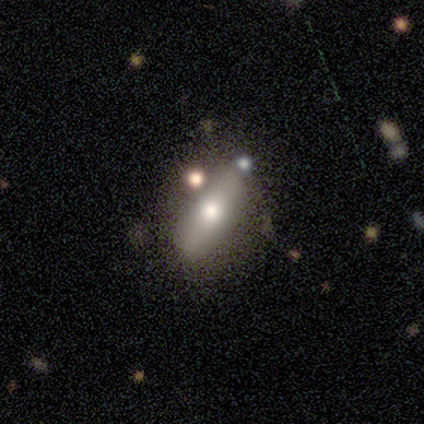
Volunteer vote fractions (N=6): Smooth or featured? 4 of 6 (67%) said smooth. How rounded? 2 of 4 (50%, tied with cigar-shaped) said in between. Merging? 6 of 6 (100%) said none.